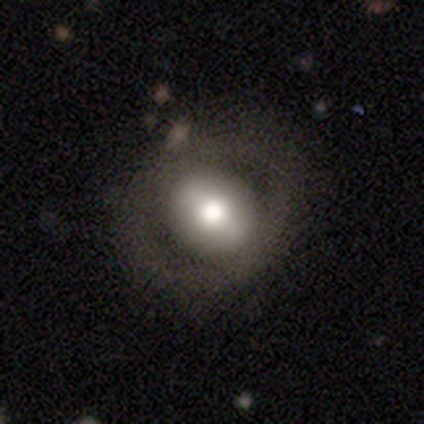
smooth_or_featured: smooth (p=0.60) [alt: featured or disk p=0.20]
how_rounded: round (p=1.00)
merging: none (p=1.00)